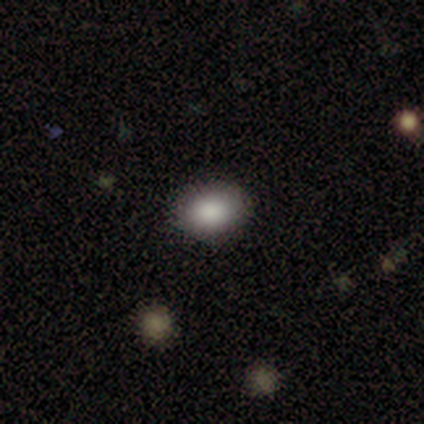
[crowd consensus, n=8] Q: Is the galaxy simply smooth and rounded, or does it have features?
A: smooth — 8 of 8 (100%).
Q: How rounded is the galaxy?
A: in between — 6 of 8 (75%).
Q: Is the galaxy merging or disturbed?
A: none — 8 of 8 (100%).